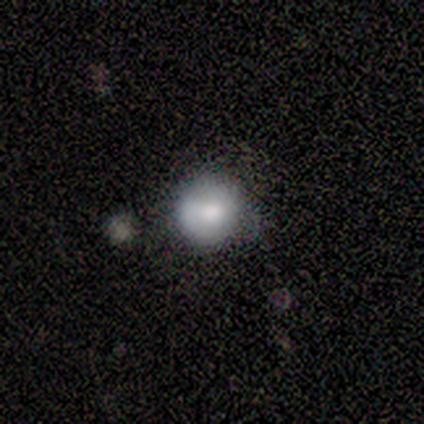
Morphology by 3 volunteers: Smooth or featured: smooth — 67% (featured or disk — 33%)
How rounded: round — 100%
Merging: minor disturbance — 67% (none — 33%)